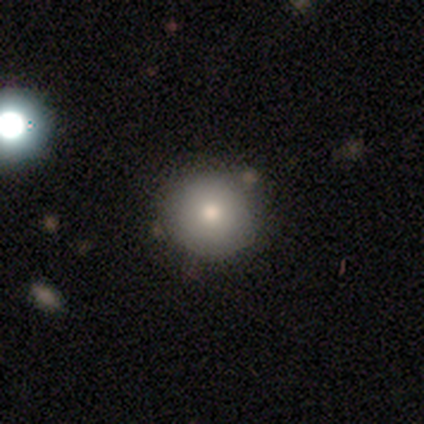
This is likely a smooth galaxy (79%). How rounded: clearly round (100%). Merging: clearly none (91%).